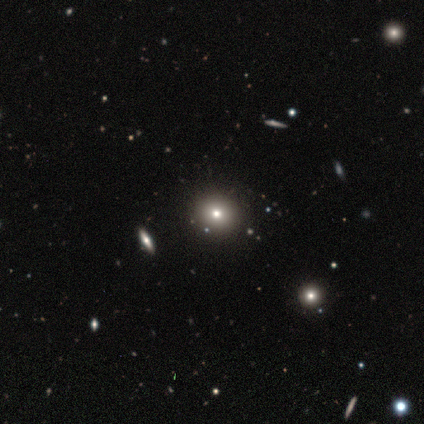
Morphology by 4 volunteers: smooth_or_featured: smooth (p=0.75) [alt: featured or disk p=0.25]
how_rounded: round (p=1.00)
merging: none (p=0.75) [alt: minor disturbance p=0.25]